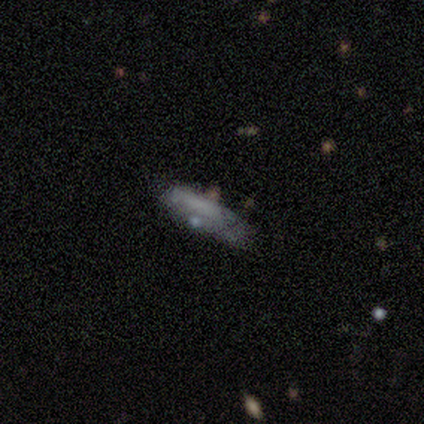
Smooth or featured? smooth (43%, tied with featured or disk)
How rounded? in between (100%)
Merging? minor disturbance (50%)